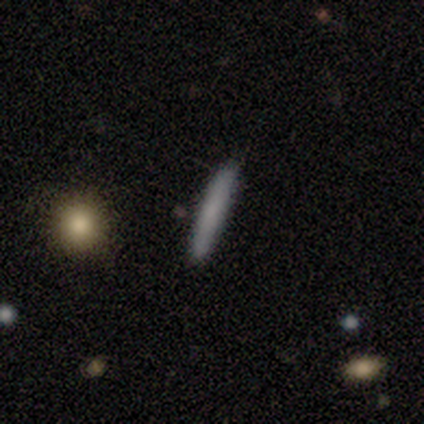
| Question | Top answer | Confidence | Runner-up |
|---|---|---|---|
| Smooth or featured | smooth | 80% | featured or disk (20%) |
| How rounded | cigar-shaped | 100% | — |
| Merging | none | 100% | — |